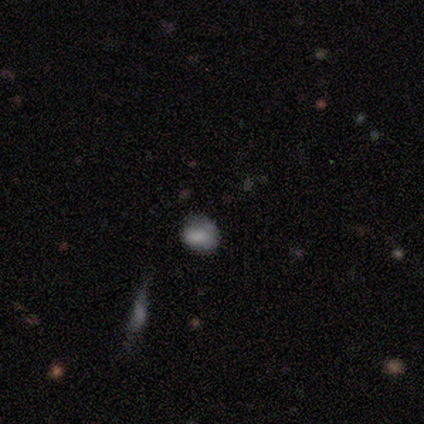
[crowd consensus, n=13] smooth 85%, featured or disk 8%, star or artifact 8%. Down the decision tree: how rounded — in between (55%); merging — none (92%).